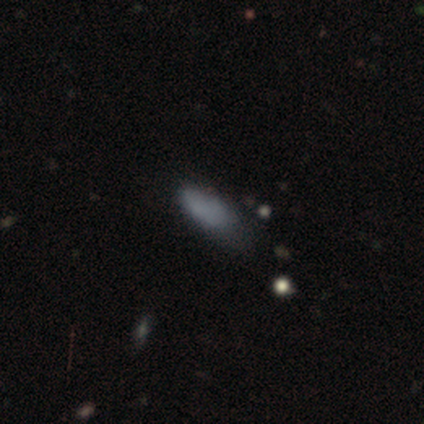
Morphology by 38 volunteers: Overall: smooth (68%). How rounded: in between (81%). Merging: minor disturbance (45%; none 36%).